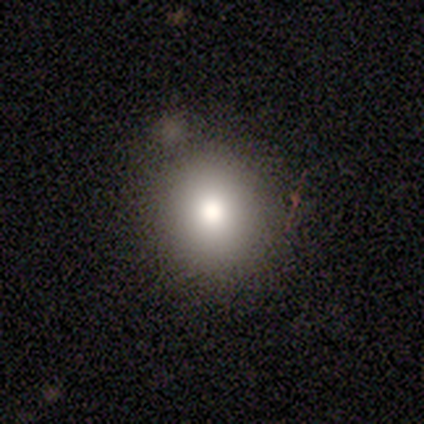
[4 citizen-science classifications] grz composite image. It shows a smooth galaxy with no disk features (100%) that is round (75%). Merging: none (100%).